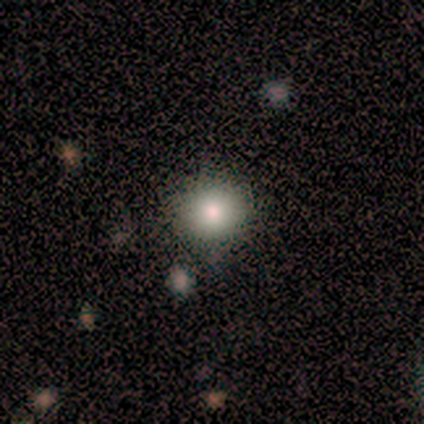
Smooth or featured?
  - smooth: 100% *
  - featured or disk: 0%
  - star or artifact: 0%
How rounded?
  - round: 100% *
  - in between: 0%
  - cigar-shaped: 0%
Merging?
  - none: 80% *
  - minor disturbance: 20%
  - major disturbance: 0%
  - merger: 0%